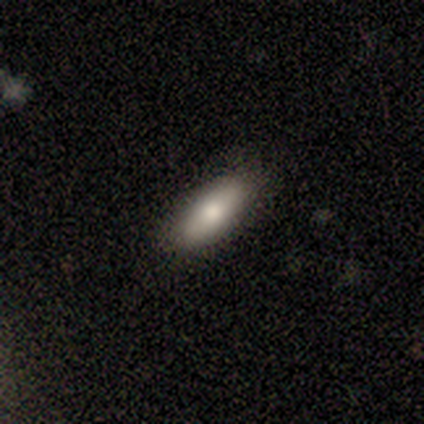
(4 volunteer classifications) smooth-or-featured: smooth: 100% | featured or disk: 0% | star or artifact: 0%
  how-rounded: in between: 100% | round: 0% | cigar-shaped: 0%
  merging: none: 75% | minor disturbance: 25% | major disturbance: 0% | merger: 0%